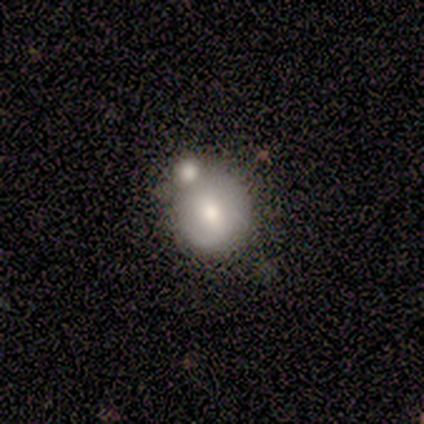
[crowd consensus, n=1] A featured or disk galaxy (100%) with no bar (100%), no spiral arms (100%) and a small central bulge (100%). Merging: none (100%).